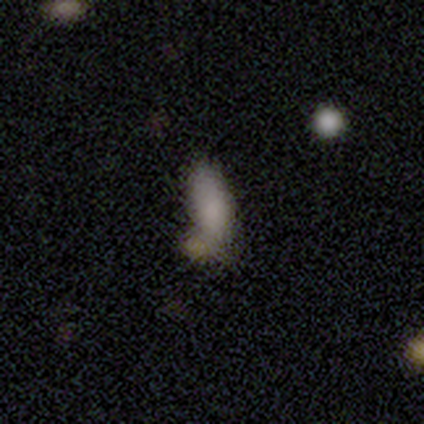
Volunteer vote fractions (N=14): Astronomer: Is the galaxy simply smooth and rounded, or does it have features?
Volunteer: smooth — 100%.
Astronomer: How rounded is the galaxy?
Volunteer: in between — 64%.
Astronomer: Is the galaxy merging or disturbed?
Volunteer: minor disturbance — 43% (runner-up: none, 36%).